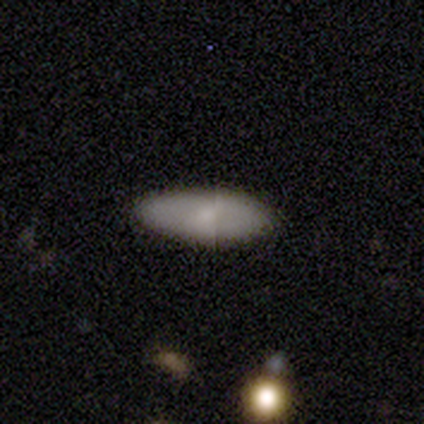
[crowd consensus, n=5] A star or artifact, not a galaxy (60%).

Vote fractions:
- Smooth or featured? star or artifact: 60% / smooth: 20% / featured or disk: 20%